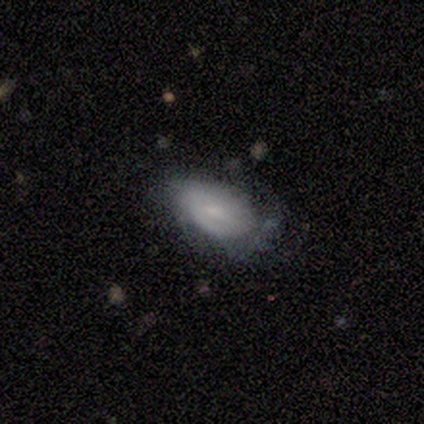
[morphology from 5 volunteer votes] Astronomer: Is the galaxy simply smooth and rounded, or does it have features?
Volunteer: featured or disk — 60% (runner-up: smooth, 40%).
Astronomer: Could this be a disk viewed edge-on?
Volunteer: no — 100%.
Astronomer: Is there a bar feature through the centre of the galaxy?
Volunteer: weak — 67%.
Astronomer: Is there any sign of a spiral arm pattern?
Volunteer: yes — 67%.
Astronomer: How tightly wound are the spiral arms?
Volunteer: tight — 50%, tied with medium at 50%.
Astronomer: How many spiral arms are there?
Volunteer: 2 — 50%, tied with 3 at 50%.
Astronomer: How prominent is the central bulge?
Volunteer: moderate — 33%, tied with small and none at 33%.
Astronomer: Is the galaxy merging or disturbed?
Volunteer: minor disturbance — 60% (runner-up: none, 40%).